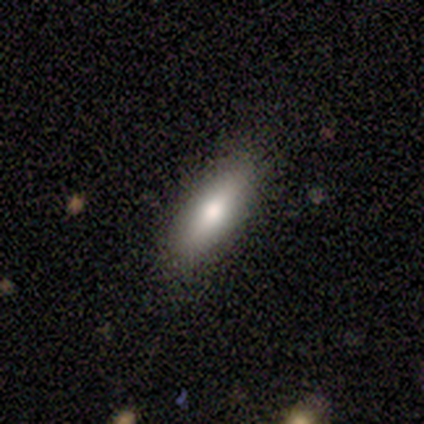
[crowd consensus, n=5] Smooth or featured? smooth (100%)
How rounded? cigar-shaped (60%)
Merging? none (60%)